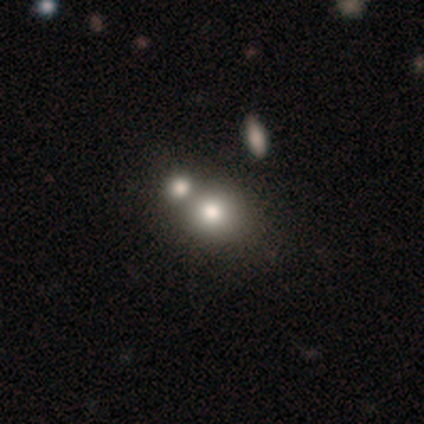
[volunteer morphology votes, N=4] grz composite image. It shows a smooth galaxy with no disk features (75%) that is round (100%). Merging: merger (100%).